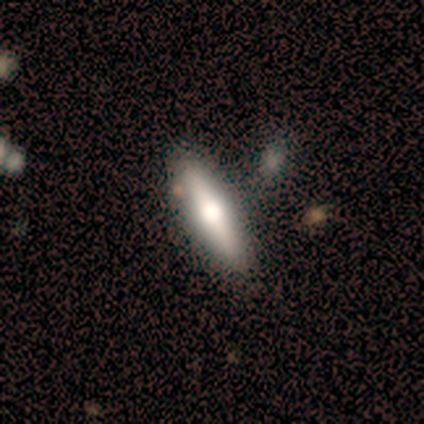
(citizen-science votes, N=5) This appears to be a featured or disk galaxy (80%) viewed edge-on (75%) with a rounded central bulge (100%). Merging: none (80%).